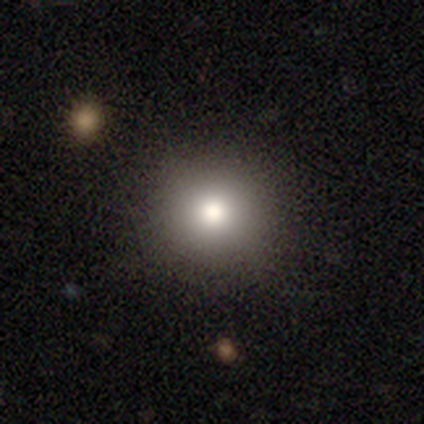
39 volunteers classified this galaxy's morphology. type=smooth (77%); roundness=round (97%); merging=none (91%).